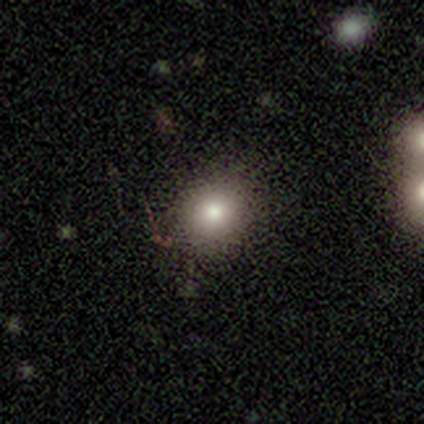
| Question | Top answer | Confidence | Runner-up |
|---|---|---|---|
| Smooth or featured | smooth | 71% | featured or disk (14%) |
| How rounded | round | 80% | in between (20%) |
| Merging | none | 100% | — |